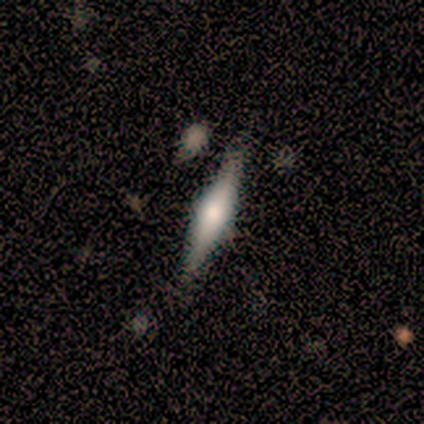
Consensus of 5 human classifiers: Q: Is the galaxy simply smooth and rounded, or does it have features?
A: smooth — 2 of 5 (40%, tied with featured or disk).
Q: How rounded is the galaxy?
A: cigar-shaped — 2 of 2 (100%).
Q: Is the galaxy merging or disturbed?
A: none — 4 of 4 (100%).